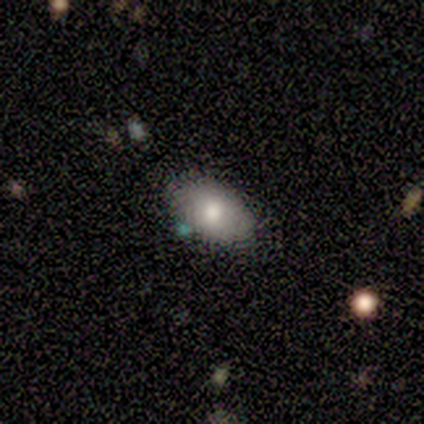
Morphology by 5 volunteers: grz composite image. It shows a smooth galaxy with no disk features (100%) that is in between round and cigar-shaped (100%). Merging: none (80%).